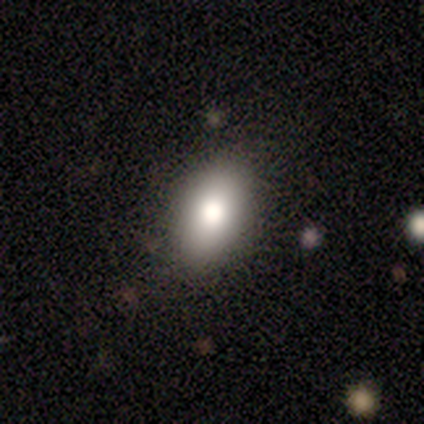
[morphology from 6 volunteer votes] smooth-or-featured: smooth: 100% | featured or disk: 0% | star or artifact: 0%
  how-rounded: in between: 100% | round: 0% | cigar-shaped: 0%
  merging: none: 83% | major disturbance: 17% | minor disturbance: 0% | merger: 0%